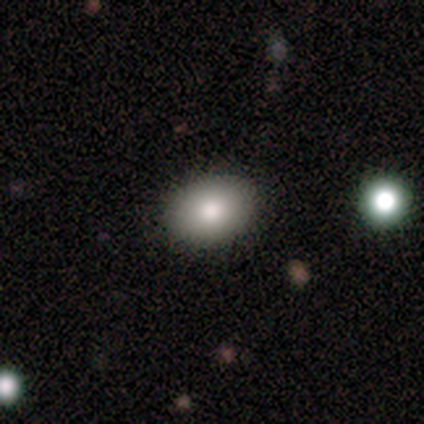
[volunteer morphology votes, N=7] smooth 57%, featured or disk 43%, star or artifact 0%. Down the decision tree: how rounded — in between (100%); merging — none (100%).